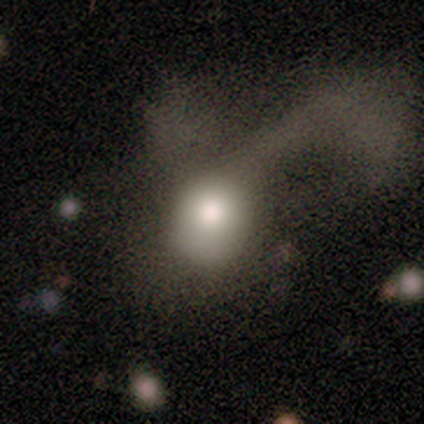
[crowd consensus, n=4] Smooth or featured? featured or disk (75%)
Edge-on disk? no (100%)
Bar? no (67%)
Spiral arms? no (100%)
Bulge size? moderate (67%)
Merging? major disturbance (100%)